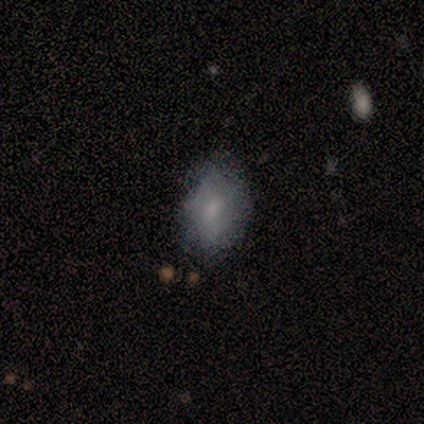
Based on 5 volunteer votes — Smooth or featured? 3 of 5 (60%) said featured or disk. Edge-on disk? 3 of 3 (100%) said no. Bar? 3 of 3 (100%) said no. Spiral arms? 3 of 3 (100%) said no. Bulge size? 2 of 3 (67%) said small. Merging? 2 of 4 (50%, tied with minor disturbance) said none.